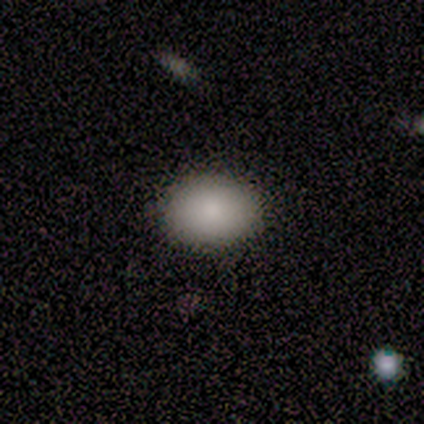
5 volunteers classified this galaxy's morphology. Smooth or featured? 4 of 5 (80%) said smooth. How rounded? 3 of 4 (75%) said in between. Merging? 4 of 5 (80%) said none.